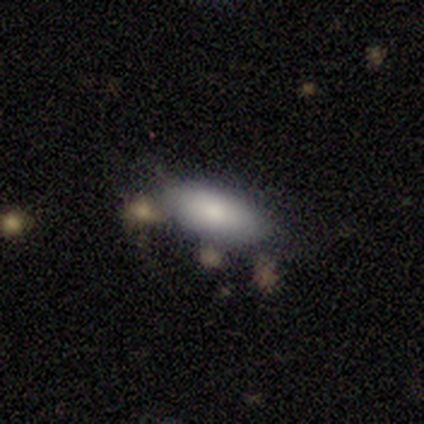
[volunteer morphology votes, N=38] A smooth galaxy with no disk features (84%) that is in between round and cigar-shaped (94%).

Vote fractions:
- Smooth or featured? smooth: 84% / star or artifact: 11% / featured or disk: 5%
- How rounded? in between: 94% / cigar-shaped: 6% / round: 0%
- Merging? none: 74% / minor disturbance: 9% / major disturbance: 9% / merger: 9%